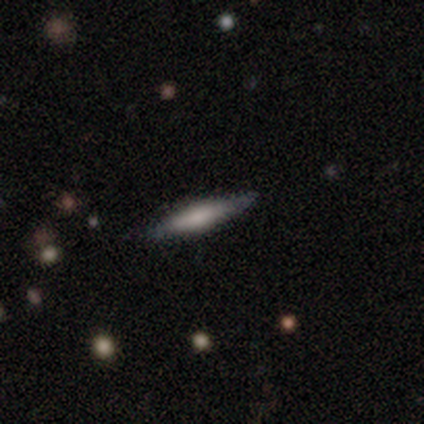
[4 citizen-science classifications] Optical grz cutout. It shows a smooth galaxy with no disk features (50%, tied with featured or disk) that is cigar-shaped (100%). Merging: none (100%).